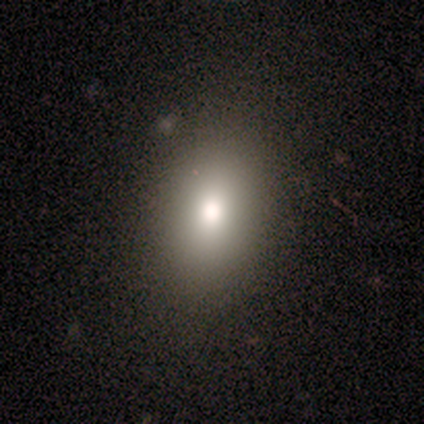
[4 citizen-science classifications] This is possibly a star or artifact rather than a galaxy (50%).